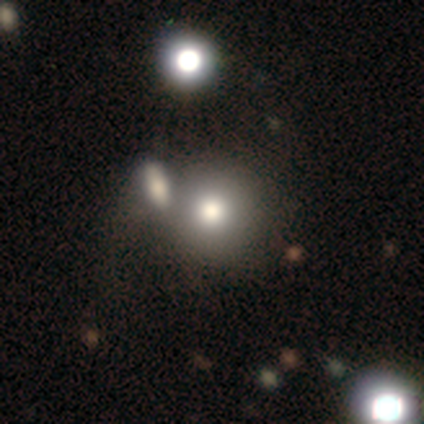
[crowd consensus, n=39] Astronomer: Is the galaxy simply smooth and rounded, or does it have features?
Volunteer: smooth — 67%.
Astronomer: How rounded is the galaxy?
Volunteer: round — 88%.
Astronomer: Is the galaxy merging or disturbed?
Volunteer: merger — 38% (runner-up: none, 25%).